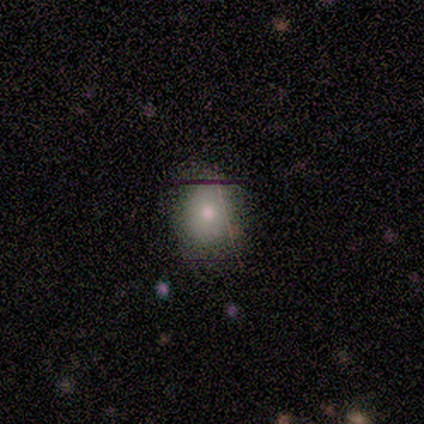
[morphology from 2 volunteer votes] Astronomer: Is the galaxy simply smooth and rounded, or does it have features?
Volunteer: star or artifact — 100%.